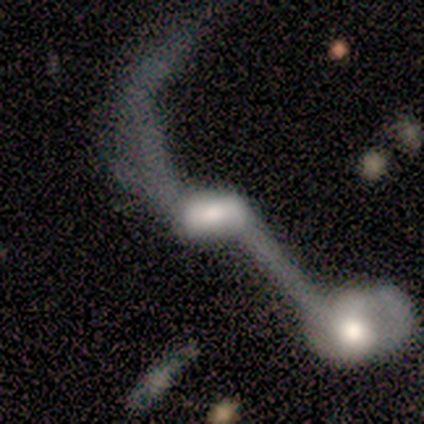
This appears to be a featured or disk galaxy (74%) with a weak bar (40%), no spiral arms (52%) and a moderate central bulge (44%). Merging: merger (65%).